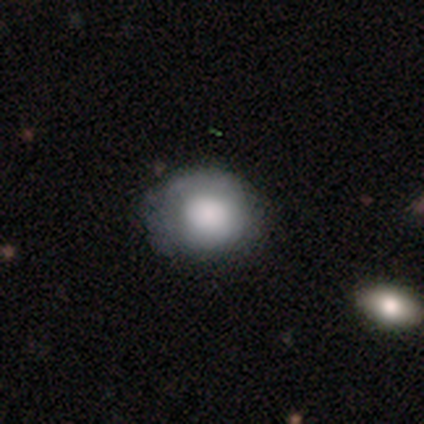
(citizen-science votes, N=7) Morphology: type=smooth (71%); roundness=round (80%); merging=none (50%, tied with minor disturbance).